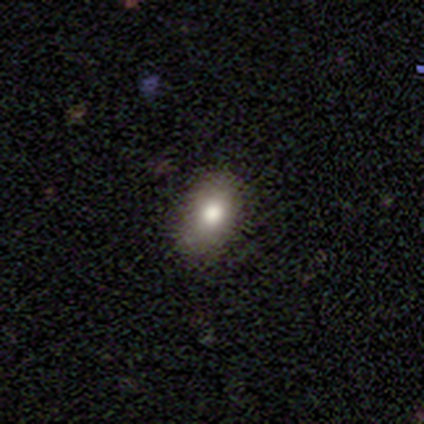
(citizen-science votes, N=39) Volunteers were most divided on "how rounded": in between: 80%, round: 17%, cigar-shaped: 3%. More confident: smooth or featured — smooth (90%); merging — none (82%).